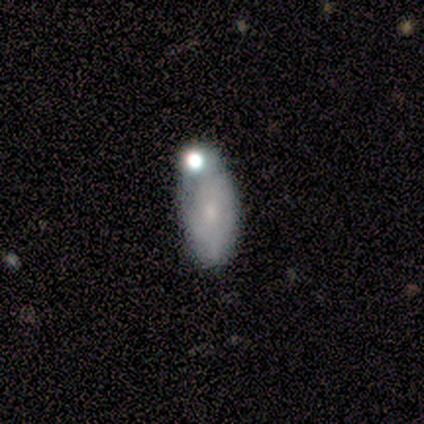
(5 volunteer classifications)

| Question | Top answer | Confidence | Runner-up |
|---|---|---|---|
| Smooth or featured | smooth | 80% | featured or disk (20%) |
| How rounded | in between | 100% | — |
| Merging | none | 40% | minor disturbance (20%) |